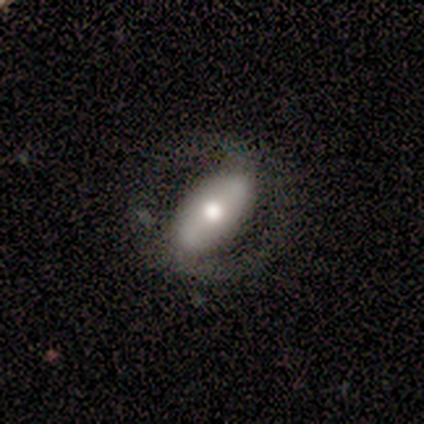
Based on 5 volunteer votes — Q: Smooth or featured?
A: featured or disk (80%); runner-up: smooth (20%)
Q: Edge-on disk?
A: no (100%)
Q: Bar?
A: strong (50%); runner-up: weak (25%)
Q: Spiral arms?
A: no (75%); runner-up: yes (25%)
Q: Bulge size?
A: moderate (75%); runner-up: small (25%)
Q: Merging?
A: none (80%); runner-up: minor disturbance (20%)